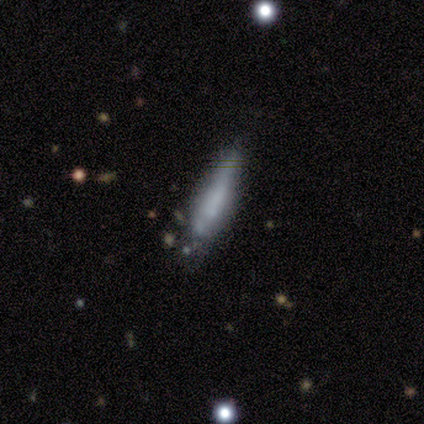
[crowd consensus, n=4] Overall: smooth (50%, tied with featured or disk). How rounded: in between (50%, tied with cigar-shaped). Merging: none (50%; minor disturbance 25%).